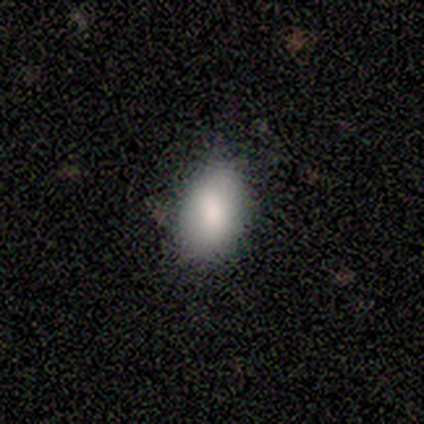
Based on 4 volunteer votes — Smooth or featured? 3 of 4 (75%) said smooth. How rounded? 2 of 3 (67%) said in between. Merging? 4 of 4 (100%) said none.